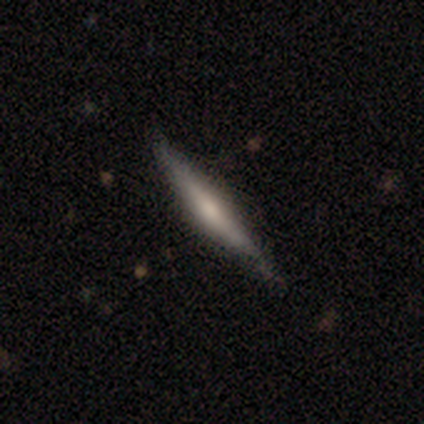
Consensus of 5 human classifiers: A featured or disk galaxy (60%) viewed edge-on (100%) with a rounded central bulge (100%).

Vote fractions:
- Smooth or featured? featured or disk: 60% / smooth: 40% / star or artifact: 0%
- Edge-on disk? yes: 100% / no: 0%
- Edge-on bulge? rounded: 100% / boxy: 0% / none: 0%
- Merging? none: 100% / minor disturbance: 0% / major disturbance: 0% / merger: 0%